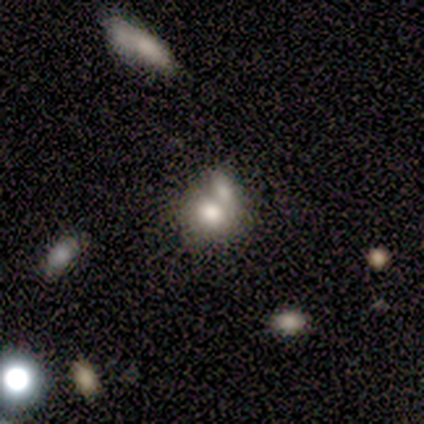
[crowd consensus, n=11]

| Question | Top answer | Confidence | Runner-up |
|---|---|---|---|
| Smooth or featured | smooth | 73% | featured or disk (18%) |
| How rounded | round | 75% | in between (25%) |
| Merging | merger | 70% | minor disturbance (30%) |